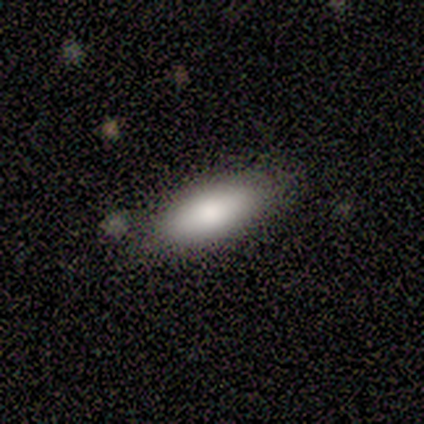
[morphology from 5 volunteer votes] A smooth galaxy with no disk features (100%) that is in between round and cigar-shaped (80%). Merging: none (60%).